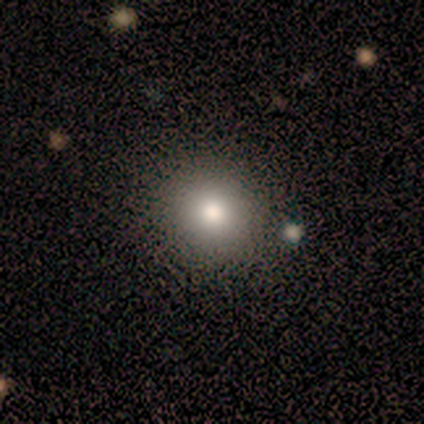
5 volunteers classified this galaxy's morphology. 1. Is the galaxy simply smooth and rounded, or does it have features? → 80% smooth, 20% star or artifact, 0% featured or disk.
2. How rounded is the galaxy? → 75% round, 25% in between, 0% cigar-shaped.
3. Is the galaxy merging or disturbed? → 100% none, 0% minor disturbance, 0% major disturbance, 0% merger.